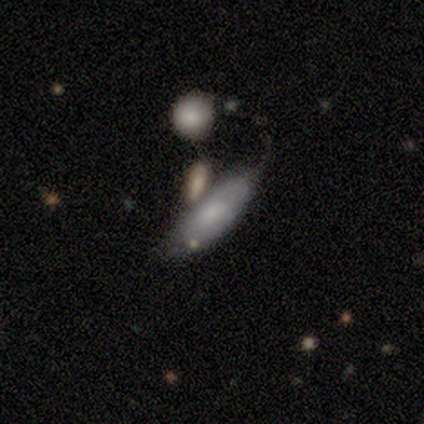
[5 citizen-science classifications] Smooth or featured?
  - smooth: 80% *
  - featured or disk: 20%
  - star or artifact: 0%
How rounded?
  - in between: 50% * (tied)
  - cigar-shaped: 50% * (tied)
  - round: 0%
Merging?
  - major disturbance: 60% *
  - none: 40%
  - minor disturbance: 0%
  - merger: 0%